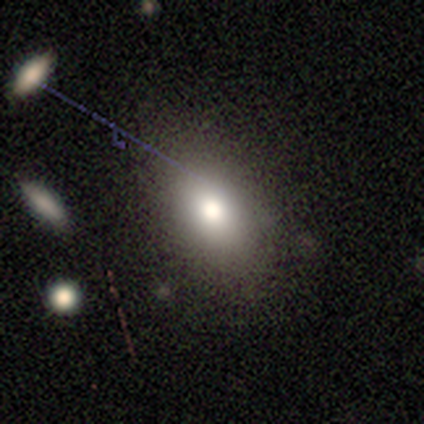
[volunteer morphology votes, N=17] A smooth galaxy with no disk features (82%) that is in between round and cigar-shaped (93%).

Vote fractions:
- Smooth or featured? smooth: 82% / star or artifact: 12% / featured or disk: 6%
- How rounded? in between: 93% / round: 7% / cigar-shaped: 0%
- Merging? none: 73% / minor disturbance: 20% / major disturbance: 7% / merger: 0%